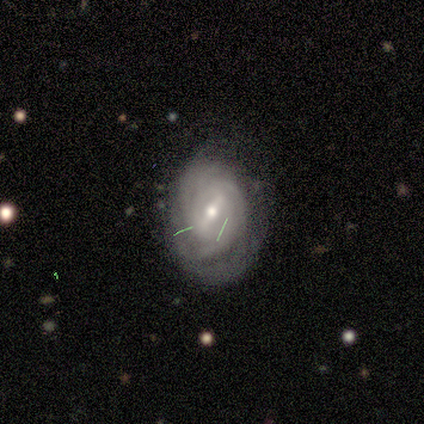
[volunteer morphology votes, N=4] A featured or disk galaxy (75%) with a weak bar (100%), tight (67%) spiral arms (100%) and a small central bulge (67%).

Vote fractions:
- Smooth or featured? featured or disk: 75% / smooth: 25% / star or artifact: 0%
- Edge-on disk? no: 100% / yes: 0%
- Bar? weak: 100% / strong: 0% / no: 0%
- Spiral arms? yes: 100% / no: 0%
- Spiral winding? tight: 67% / medium: 33% / loose: 0%
- Spiral arm count? can't tell: 100% / 1: 0% / 2: 0% / 3: 0% / 4: 0% / more than 4: 0%
- Bulge size? small: 67% / moderate: 33% / dominant: 0% / large: 0% / none: 0%
- Merging? minor disturbance: 50% / none: 25% / major disturbance: 25% / merger: 0%